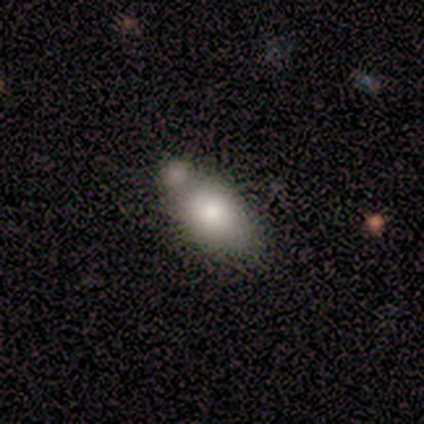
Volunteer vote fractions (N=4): smooth 75%, featured or disk 25%, star or artifact 0%. Down the decision tree: how rounded — in between (100%); merging — none (50%, tied with merger).